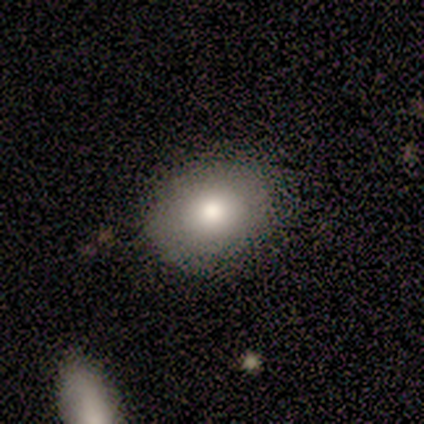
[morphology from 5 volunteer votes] Volunteers were most divided on "how rounded": in between: 80%, round: 20%, cigar-shaped: 0%. More confident: smooth or featured — smooth (100%); merging — none (80%).